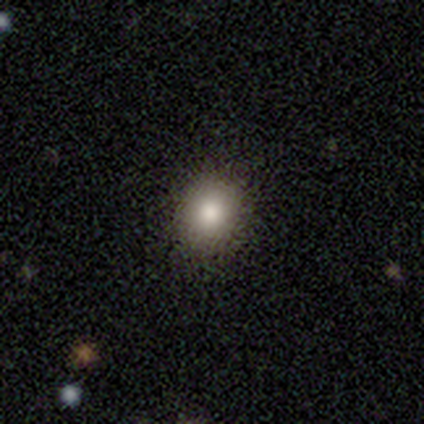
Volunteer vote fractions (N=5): A smooth galaxy with no disk features (80%) that is round (100%). Merging: none (100%).